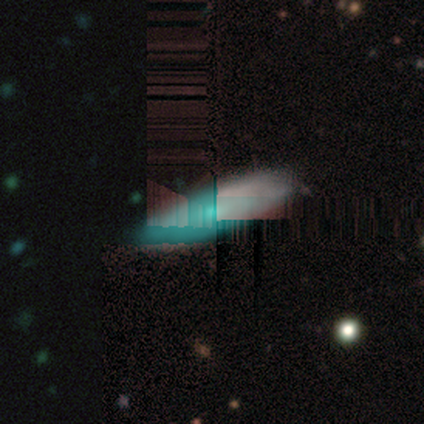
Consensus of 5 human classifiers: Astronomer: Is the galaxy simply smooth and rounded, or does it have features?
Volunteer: featured or disk — 60%.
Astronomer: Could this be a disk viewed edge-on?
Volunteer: yes — 67%.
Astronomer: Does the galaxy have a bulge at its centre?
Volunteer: rounded — 100%.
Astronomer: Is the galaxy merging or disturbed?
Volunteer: none — 100%.